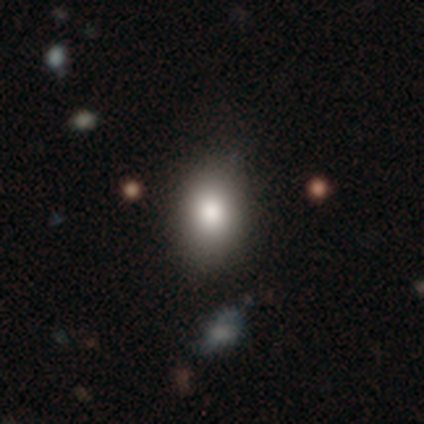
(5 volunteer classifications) smooth-or-featured: smooth: 100% | featured or disk: 0% | star or artifact: 0%
  how-rounded: in between: 80% | cigar-shaped: 20% | round: 0%
  merging: none: 60% | minor disturbance: 40% | major disturbance: 0% | merger: 0%